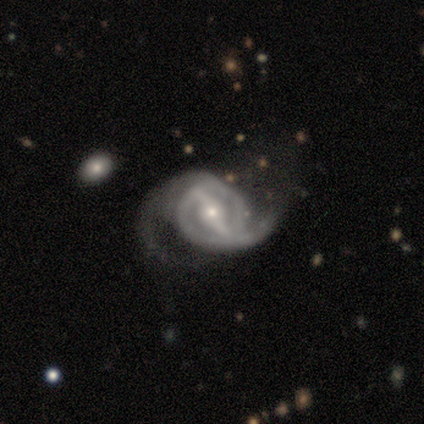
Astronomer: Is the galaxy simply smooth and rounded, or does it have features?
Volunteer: featured or disk — 90%.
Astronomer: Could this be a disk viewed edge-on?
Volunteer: no — 94%.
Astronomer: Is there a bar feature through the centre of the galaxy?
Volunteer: strong — 79%.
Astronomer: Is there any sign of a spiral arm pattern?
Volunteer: yes — 94%.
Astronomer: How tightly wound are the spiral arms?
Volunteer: medium — 53% (runner-up: loose, 31%).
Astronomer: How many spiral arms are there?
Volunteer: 2 — 94%.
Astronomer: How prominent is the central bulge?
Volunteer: small — 65%.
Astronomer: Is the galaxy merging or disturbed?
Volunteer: none — 53%.